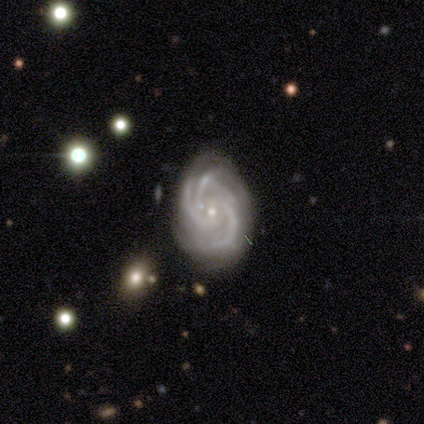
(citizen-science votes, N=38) A featured or disk galaxy (97%) with no bar (64%), 3 (72%) tight (64%) spiral arms (100%) and a small central bulge (89%).

Vote fractions:
- Smooth or featured? featured or disk: 97% / smooth: 3% / star or artifact: 0%
- Edge-on disk? no: 97% / yes: 3%
- Bar? no: 64% / weak: 28% / strong: 8%
- Spiral arms? yes: 100% / no: 0%
- Spiral winding? tight: 64% / medium: 31% / loose: 6%
- Spiral arm count? 3: 72% / 4: 8% / can't tell: 8% / 2: 6% / more than 4: 6% / 1: 0%
- Bulge size? small: 89% / moderate: 11% / dominant: 0% / large: 0% / none: 0%
- Merging? none: 76% / minor disturbance: 18% / major disturbance: 3% / merger: 3%